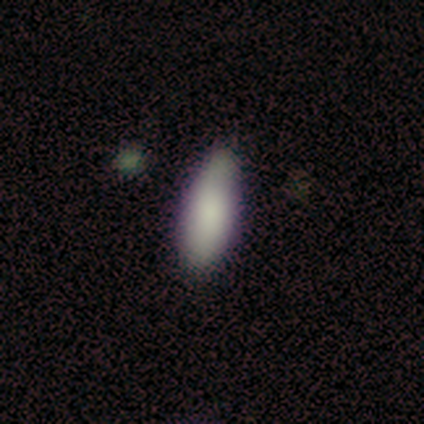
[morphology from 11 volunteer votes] This appears to be a smooth galaxy with no disk features (73%) that is in between round and cigar-shaped (50%, tied with cigar-shaped). Merging: none (64%).